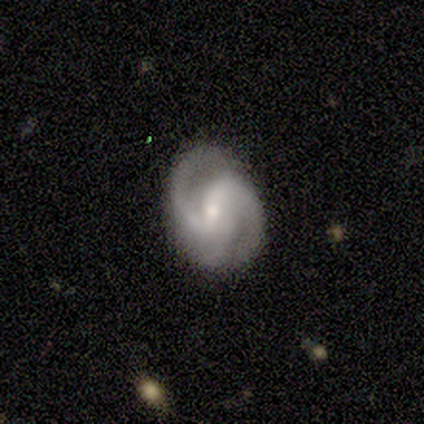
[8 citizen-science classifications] Overall: featured or disk (75%). Edge-on disk: no (100%). Bar: weak (83%). Spiral arms: yes (100%). Spiral arm count: 3 (67%; 2 33%). Spiral winding: medium (67%; tight 33%). Bulge size: moderate (67%; small 33%). Merging: none (71%).